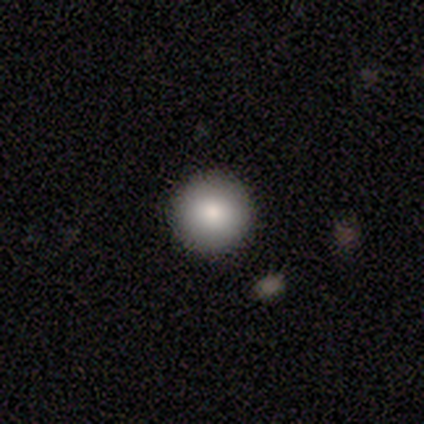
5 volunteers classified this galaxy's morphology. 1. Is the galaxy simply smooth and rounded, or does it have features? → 80% smooth, 20% featured or disk, 0% star or artifact.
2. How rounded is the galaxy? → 100% round, 0% in between, 0% cigar-shaped.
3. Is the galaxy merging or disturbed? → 100% none, 0% minor disturbance, 0% major disturbance, 0% merger.